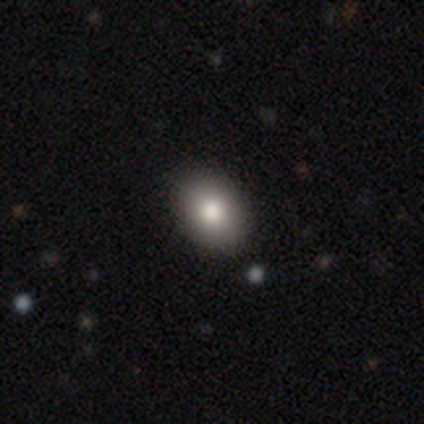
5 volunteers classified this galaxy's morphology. smooth_or_featured: smooth (p=1.00)
how_rounded: in between (p=0.80) [alt: round p=0.20]
merging: none (p=0.80) [alt: minor disturbance p=0.20]